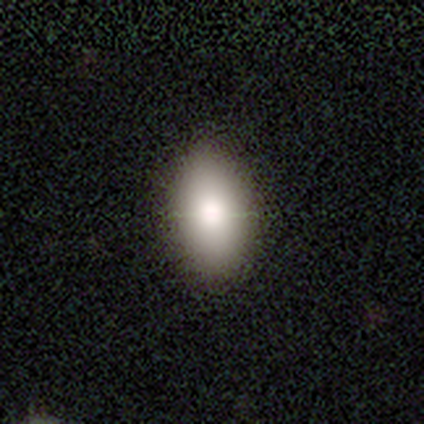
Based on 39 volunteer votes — smooth-or-featured: smooth: 90% | featured or disk: 5% | star or artifact: 5%
  how-rounded: in between: 86% | round: 9% | cigar-shaped: 6%
  merging: none: 54% | minor disturbance: 11% | major disturbance: 3% | merger: 0%